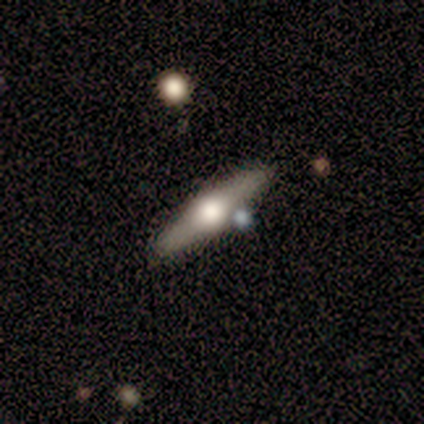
A smooth galaxy with no disk features (100%) that is cigar-shaped (100%).

Vote fractions:
- Smooth or featured? smooth: 100% / featured or disk: 0% / star or artifact: 0%
- How rounded? cigar-shaped: 100% / round: 0% / in between: 0%
- Merging? none: 100% / minor disturbance: 0% / major disturbance: 0% / merger: 0%